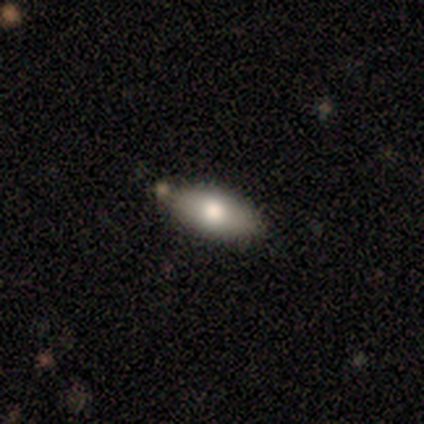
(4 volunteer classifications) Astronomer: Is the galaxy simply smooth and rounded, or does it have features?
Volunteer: smooth — 75%.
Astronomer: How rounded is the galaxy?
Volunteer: in between — 100%.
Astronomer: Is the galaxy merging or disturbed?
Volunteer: none — 75%.